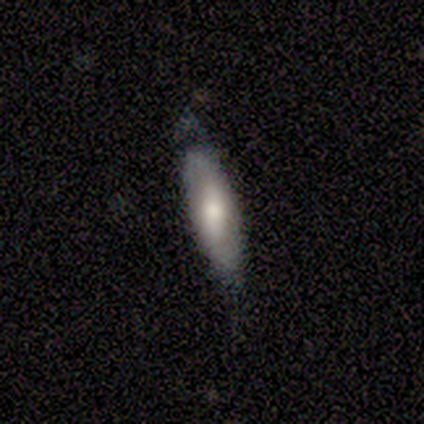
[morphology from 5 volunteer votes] smooth_or_featured: featured or disk (p=0.60) [alt: smooth p=0.40]
disk_edge_on: no (p=1.00)
bar: weak (p=0.67) [alt: no p=0.33]
has_spiral_arms: no (p=0.67) [alt: yes p=0.33]
bulge_size: moderate (p=0.67) [alt: small p=0.33]
merging: none (p=0.40) [tied with: minor disturbance p=0.40]